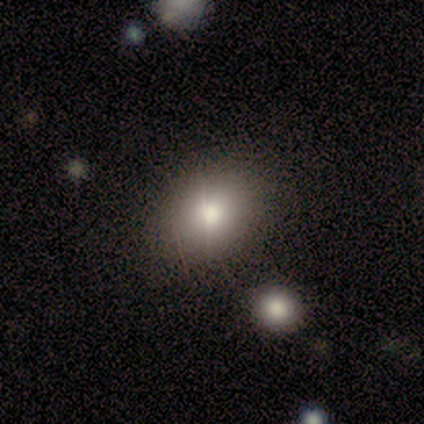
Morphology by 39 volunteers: Overall: smooth (79%). How rounded: round (52%; in between 48%). Merging: none (81%).